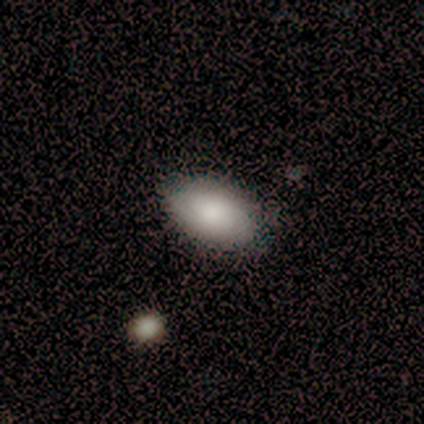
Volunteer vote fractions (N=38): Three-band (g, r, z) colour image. It shows a smooth galaxy with no disk features (97%) that is in between round and cigar-shaped (97%). Merging: none (61%).